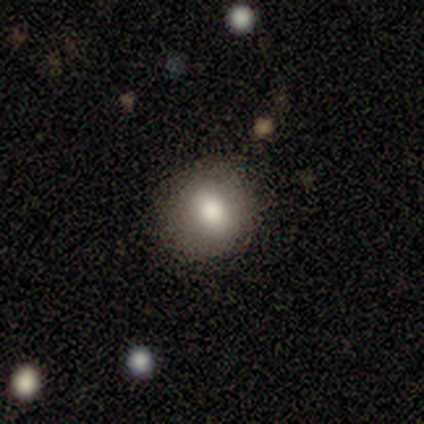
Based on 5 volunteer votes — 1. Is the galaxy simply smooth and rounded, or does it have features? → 80% smooth, 20% featured or disk, 0% star or artifact.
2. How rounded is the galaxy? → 100% round, 0% in between, 0% cigar-shaped.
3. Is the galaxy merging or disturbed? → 80% none, 20% major disturbance, 0% minor disturbance, 0% merger.